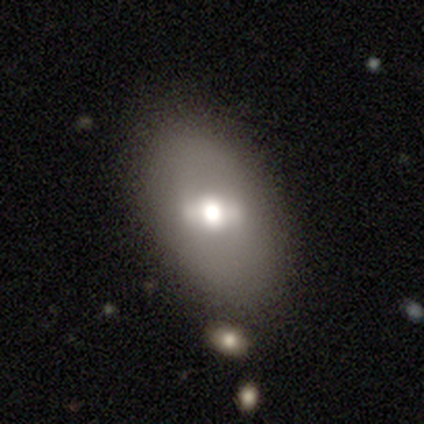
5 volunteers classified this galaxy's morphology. A smooth galaxy with no disk features (80%) that is in between round and cigar-shaped (100%). Merging: none (80%).